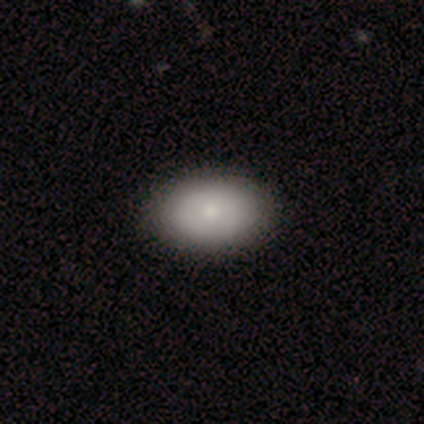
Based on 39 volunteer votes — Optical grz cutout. It shows a smooth galaxy with no disk features (79%) that is in between round and cigar-shaped (90%). Merging: none (63%).